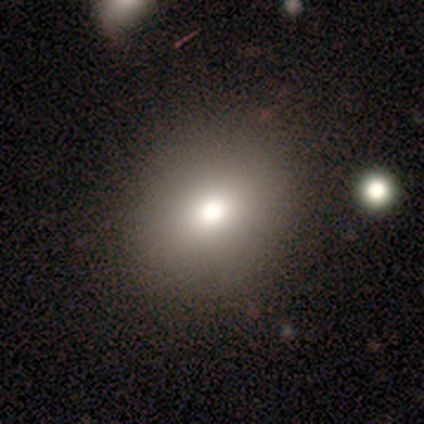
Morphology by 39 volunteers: Volunteers were most divided on "how rounded": round: 57%, in between: 43%, cigar-shaped: 0%. More confident: merging — none (88%); smooth or featured — smooth (77%).